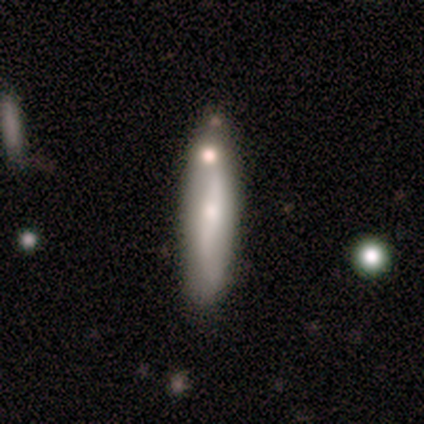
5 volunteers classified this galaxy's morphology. Smooth or featured? smooth (80%)
How rounded? cigar-shaped (100%)
Merging? none (40%, tied with merger)